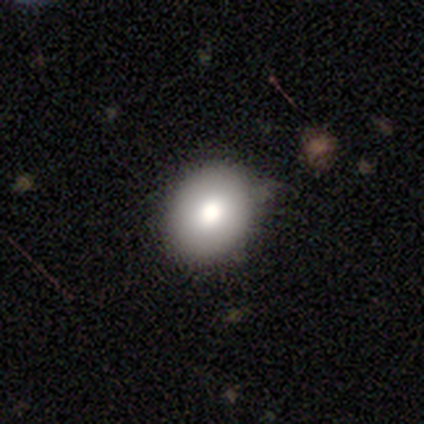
This is clearly a smooth galaxy (80%). How rounded: possibly round (50%, tied with in between). Merging: likely none (60%).